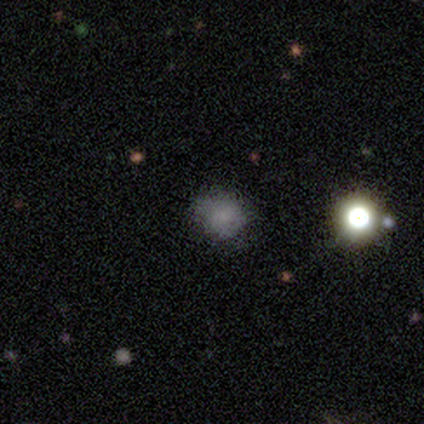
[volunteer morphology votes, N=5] A smooth galaxy with no disk features (100%) that is round (100%). Merging: none (40%, tied with minor disturbance).